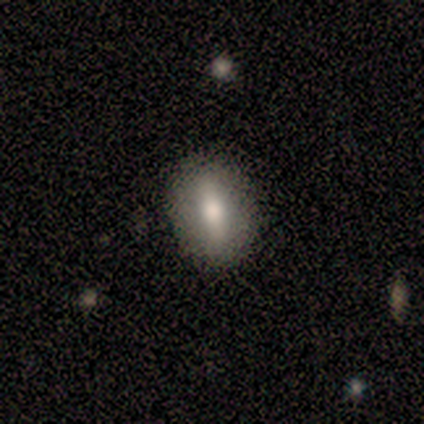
Smooth or featured?
  - smooth: 60% *
  - featured or disk: 40%
  - star or artifact: 0%
How rounded?
  - in between: 100% *
  - round: 0%
  - cigar-shaped: 0%
Merging?
  - none: 100% *
  - minor disturbance: 0%
  - major disturbance: 0%
  - merger: 0%